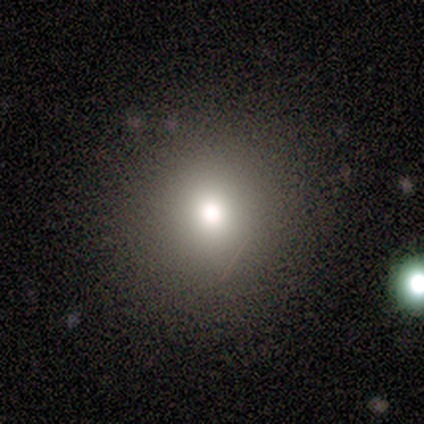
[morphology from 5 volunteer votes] A smooth galaxy with no disk features (80%) that is round (100%). Merging: none (75%).